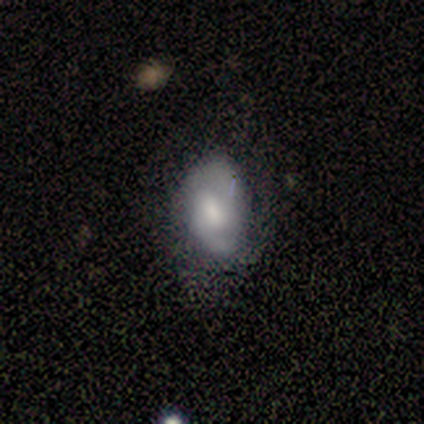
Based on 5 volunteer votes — Smooth or featured: featured or disk — 60% (smooth — 40%)
Edge-on disk: no — 100%
Bar: no — 67% (weak — 33%)
Spiral arms: yes — 100%
Spiral winding: medium — 67% (tight — 33%)
Spiral arm count: 2 — 67% (can't tell — 33%)
Bulge size: moderate — 33% (tied with small — 33%; none — 33%)
Merging: none — 40% (tied with major disturbance — 40%)